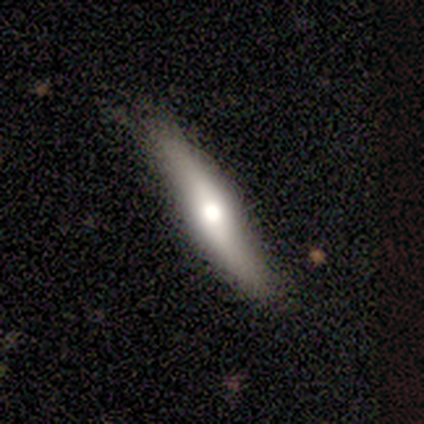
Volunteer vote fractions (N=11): Morphology: type=featured or disk (55%); edge-on=yes (67%); edge-on bulge=rounded (75%); merging=none (73%).